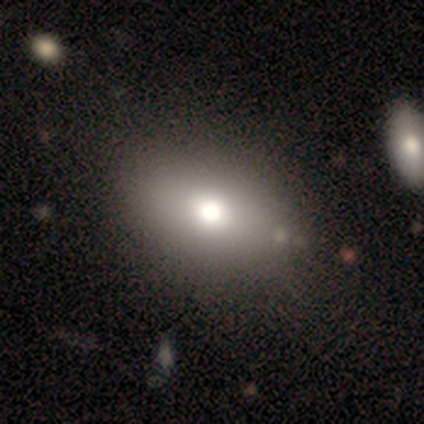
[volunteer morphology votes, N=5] Volunteers were most divided on "how rounded": in between: 67%, round: 33%, cigar-shaped: 0%. More confident: merging — none (75%); smooth or featured — smooth (60%).